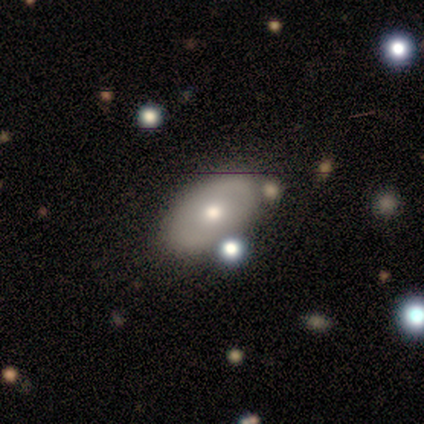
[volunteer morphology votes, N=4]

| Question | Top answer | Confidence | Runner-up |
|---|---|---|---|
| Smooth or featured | smooth | 50% | tied: featured or disk (50%) |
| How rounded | round | 50% | tied: in between (50%) |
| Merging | none | 50% | minor disturbance (25%) |